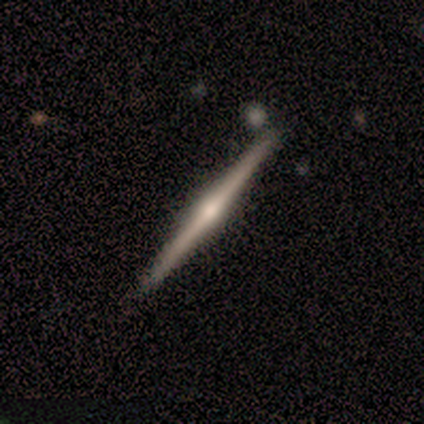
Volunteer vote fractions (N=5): Smooth or featured?
  - featured or disk: 100% *
  - smooth: 0%
  - star or artifact: 0%
Edge-on disk?
  - yes: 100% *
  - no: 0%
Edge-on bulge?
  - rounded: 100% *
  - boxy: 0%
  - none: 0%
Merging?
  - none: 80% *
  - minor disturbance: 20%
  - major disturbance: 0%
  - merger: 0%